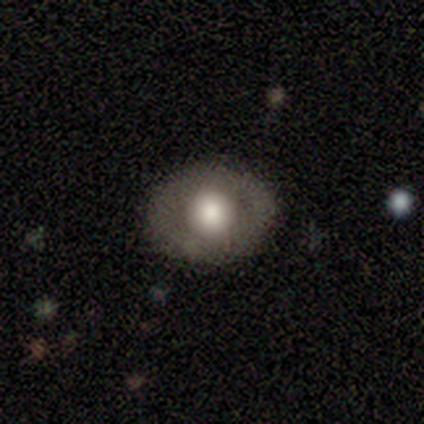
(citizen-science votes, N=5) Smooth or featured? 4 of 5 (80%) said featured or disk. Edge-on disk? 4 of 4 (100%) said no. Bar? 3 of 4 (75%) said no. Spiral arms? 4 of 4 (100%) said no. Bulge size? 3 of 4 (75%) said large. Merging? 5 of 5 (100%) said none.